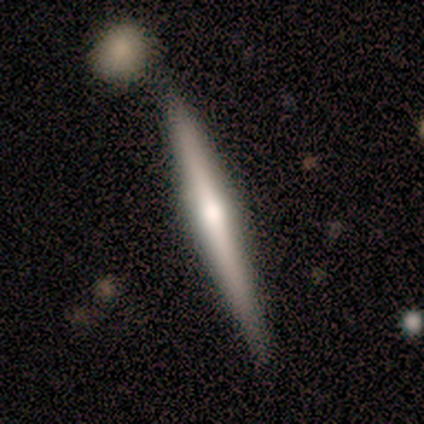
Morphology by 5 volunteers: Smooth or featured? 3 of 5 (60%) said featured or disk. Edge-on disk? 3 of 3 (100%) said yes. Edge-on bulge? 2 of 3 (67%) said rounded. Merging? 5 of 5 (100%) said none.